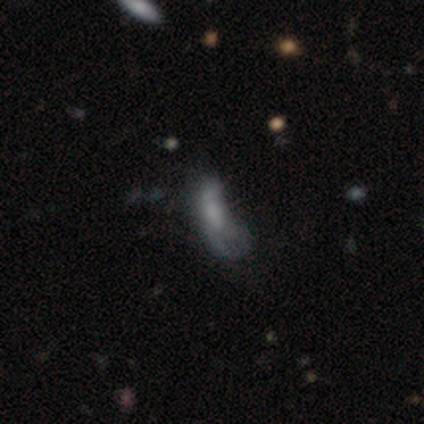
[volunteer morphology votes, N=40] Smooth or featured?
  - smooth: 80% *
  - featured or disk: 10%
  - star or artifact: 10%
How rounded?
  - in between: 62% *
  - cigar-shaped: 34%
  - round: 3%
Merging?
  - minor disturbance: 33% * (tied)
  - major disturbance: 33% * (tied)
  - none: 28%
  - merger: 6%